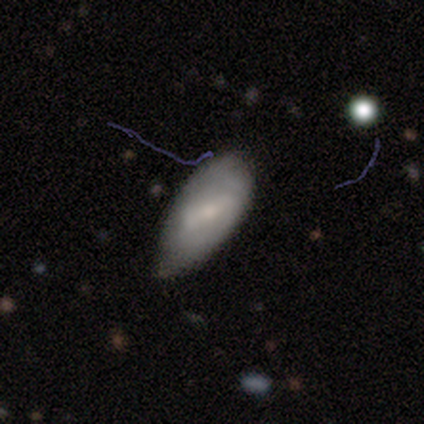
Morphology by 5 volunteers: Smooth or featured? smooth (60%)
How rounded? in between (100%)
Merging? minor disturbance (60%)